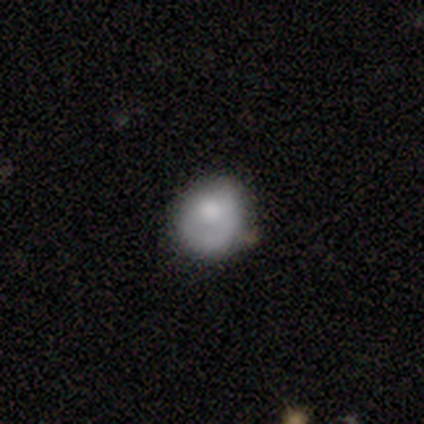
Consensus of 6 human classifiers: Smooth or featured? smooth (67%)
How rounded? round (100%)
Merging? minor disturbance (67%)